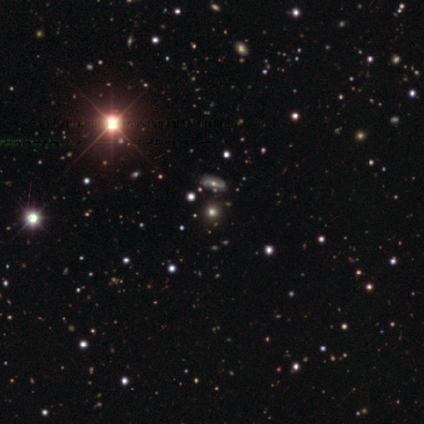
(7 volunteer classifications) Smooth or featured?
  - star or artifact: 43% *
  - smooth: 29%
  - featured or disk: 29%